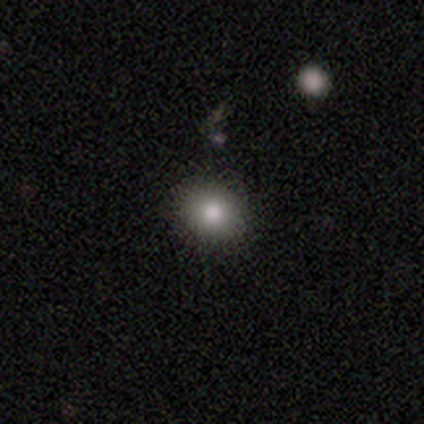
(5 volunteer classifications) smooth-or-featured: smooth: 60% | featured or disk: 40% | star or artifact: 0%
  how-rounded: round: 100% | in between: 0% | cigar-shaped: 0%
  merging: none: 80% | merger: 20% | minor disturbance: 0% | major disturbance: 0%